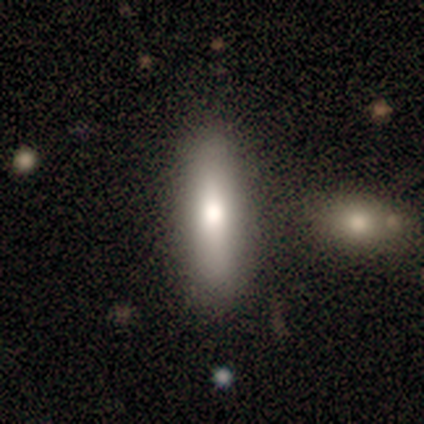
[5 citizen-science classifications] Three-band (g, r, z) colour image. It shows a smooth galaxy with no disk features (80%) that is in between round and cigar-shaped (50%, tied with cigar-shaped). Merging: none (100%).